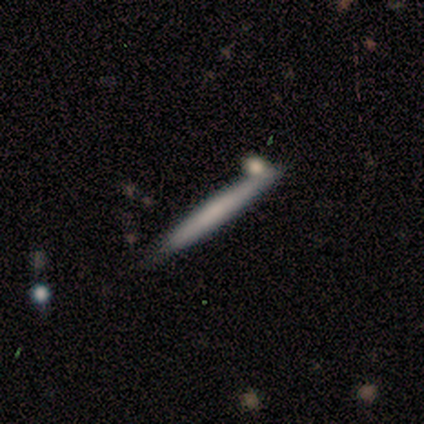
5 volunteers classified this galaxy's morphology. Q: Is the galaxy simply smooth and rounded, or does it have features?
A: smooth — 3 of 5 (60%).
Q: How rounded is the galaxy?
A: cigar-shaped — 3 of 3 (100%).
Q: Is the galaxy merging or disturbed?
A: none — 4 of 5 (80%).